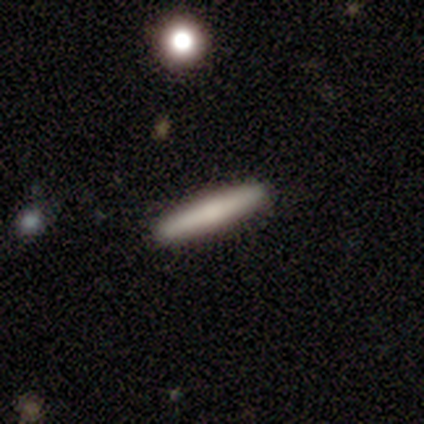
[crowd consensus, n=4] Smooth or featured? smooth (100%)
How rounded? cigar-shaped (75%)
Merging? none (100%)